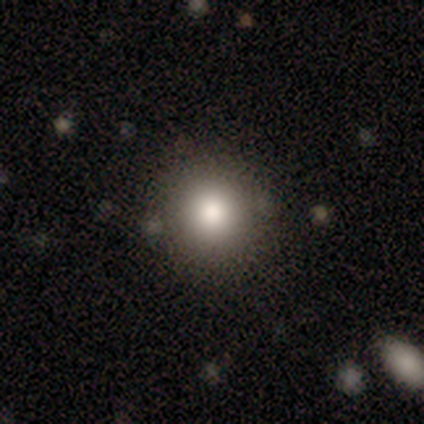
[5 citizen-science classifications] Volunteers were most divided on "smooth or featured": smooth: 80%, star or artifact: 20%, featured or disk: 0%. More confident: how rounded — round (100%); merging — none (100%).